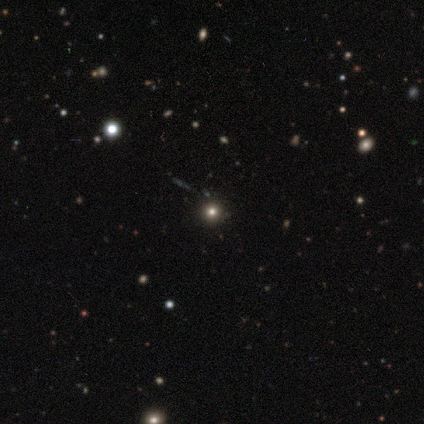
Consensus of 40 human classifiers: Q: Smooth or featured?
A: star or artifact (52%); runner-up: smooth (45%)